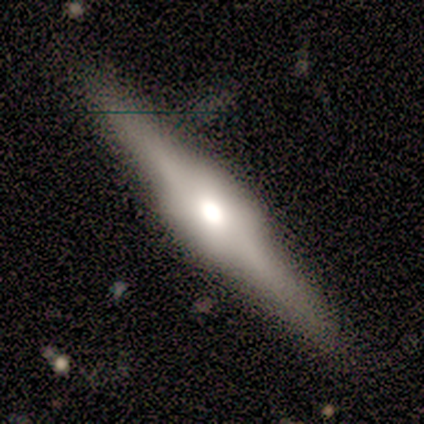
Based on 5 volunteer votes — This appears to be a featured or disk galaxy (100%) viewed edge-on (100%) with a rounded central bulge (60%). Merging: none (100%).